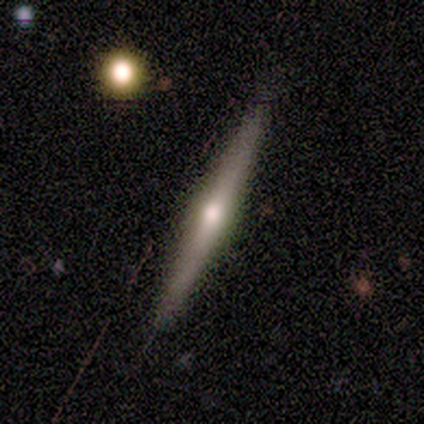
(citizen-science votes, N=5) Volunteers were most divided on "smooth or featured": featured or disk: 60%, smooth: 40%, star or artifact: 0%. More confident: edge-on disk — yes (100%); edge-on bulge — rounded (100%); merging — none (100%).